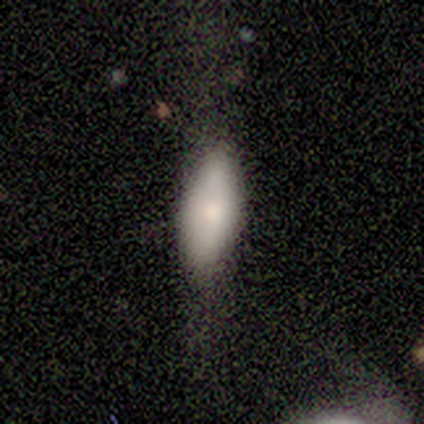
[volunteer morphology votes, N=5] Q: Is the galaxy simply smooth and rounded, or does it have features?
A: smooth — 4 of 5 (80%).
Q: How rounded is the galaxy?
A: in between — 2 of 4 (50%, tied with cigar-shaped).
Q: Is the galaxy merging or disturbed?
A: none — 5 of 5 (100%).